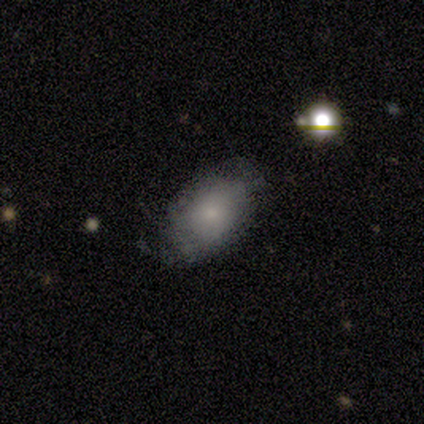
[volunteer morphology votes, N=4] smooth-or-featured: smooth: 50% (tied) | featured or disk: 50% (tied) | star or artifact: 0%
  how-rounded: in between: 100% | round: 0% | cigar-shaped: 0%
  merging: none: 75% | major disturbance: 25% | minor disturbance: 0% | merger: 0%